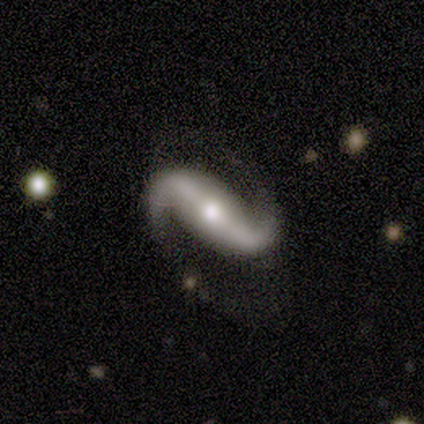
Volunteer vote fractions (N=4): Smooth or featured?
  - featured or disk: 100% *
  - smooth: 0%
  - star or artifact: 0%
Edge-on disk?
  - no: 100% *
  - yes: 0%
Bar?
  - strong: 50% * (tied)
  - weak: 50% * (tied)
  - no: 0%
Spiral arms?
  - yes: 100% *
  - no: 0%
Spiral winding?
  - loose: 100% *
  - tight: 0%
  - medium: 0%
Spiral arm count?
  - 2: 100% *
  - 1: 0%
  - 3: 0%
  - 4: 0%
  - more than 4: 0%
  - can't tell: 0%
Bulge size?
  - moderate: 50% *
  - large: 25%
  - small: 25%
  - dominant: 0%
  - none: 0%
Merging?
  - none: 50% *
  - major disturbance: 25%
  - merger: 25%
  - minor disturbance: 0%